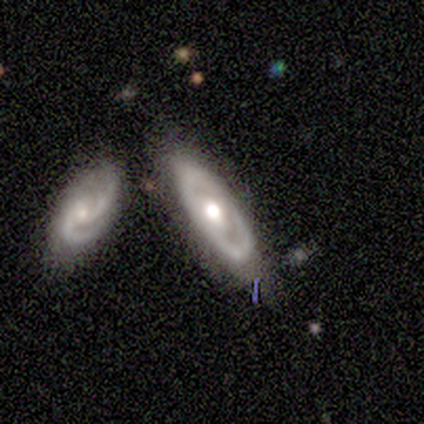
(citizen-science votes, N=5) Overall: featured or disk (80%). Edge-on disk: no (75%). Bar: no (100%). Spiral arms: no (67%; yes 33%). Bulge size: moderate (100%). Merging: none (80%).